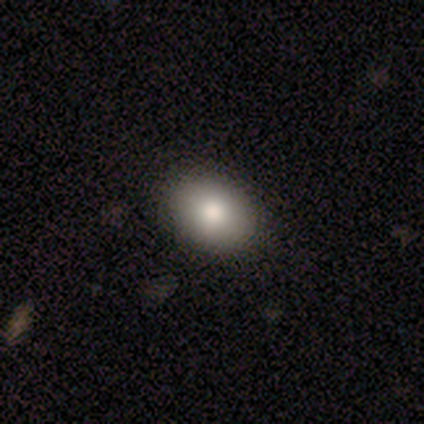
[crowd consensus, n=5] Volunteers were most divided on "smooth or featured": smooth: 80%, featured or disk: 20%, star or artifact: 0%. More confident: how rounded — in between (100%); merging — none (100%).